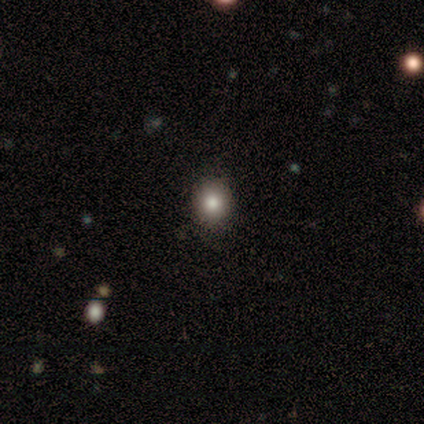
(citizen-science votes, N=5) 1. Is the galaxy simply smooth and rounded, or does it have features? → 60% smooth, 40% star or artifact, 0% featured or disk.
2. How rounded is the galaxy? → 67% in between, 33% round, 0% cigar-shaped.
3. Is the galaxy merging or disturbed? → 100% none, 0% minor disturbance, 0% major disturbance, 0% merger.